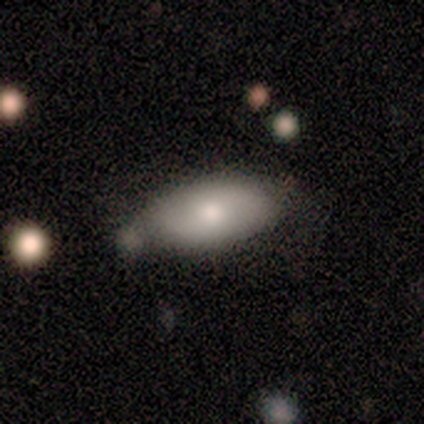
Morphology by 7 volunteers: Volunteers were most divided on "how rounded" (2-way tie): in between: 50%, cigar-shaped: 50%, round: 0%; "merging" (2-way tie): none: 43%, minor disturbance: 43%, merger: 14%, major disturbance: 0%. More confident: smooth or featured — smooth (57%).